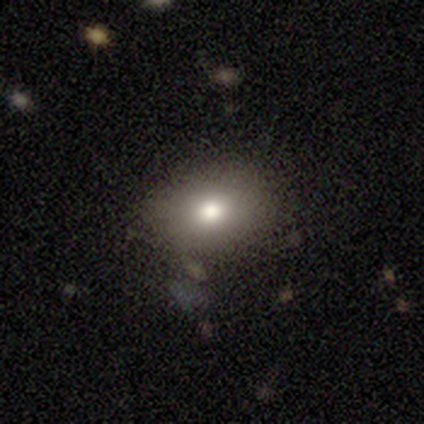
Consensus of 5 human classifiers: Smooth or featured: smooth — 40% (tied with featured or disk — 40%)
How rounded: round — 100%
Merging: none — 75% (minor disturbance — 25%)